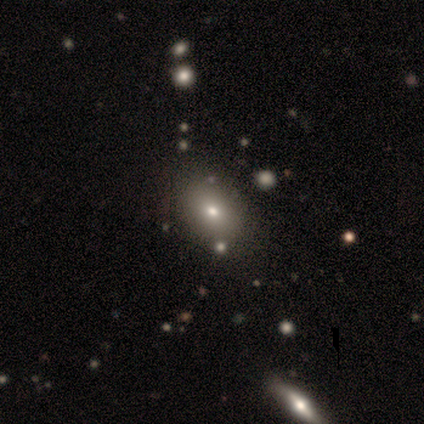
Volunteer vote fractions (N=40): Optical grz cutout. It shows a smooth galaxy with no disk features (78%) that is in between round and cigar-shaped (68%). Merging: none (76%).